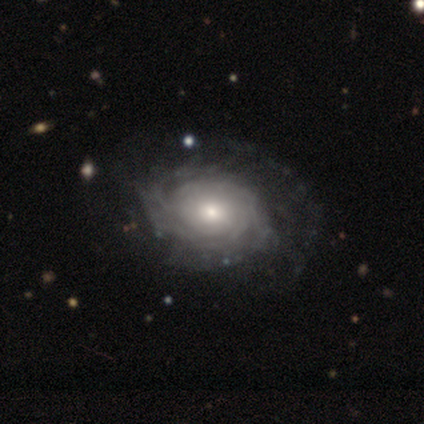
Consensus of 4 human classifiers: smooth-or-featured: featured or disk: 100% | smooth: 0% | star or artifact: 0%
  disk-edge-on: no: 100% | yes: 0%
    bar: no: 100% | strong: 0% | weak: 0%
    has-spiral-arms: yes: 100% | no: 0%
      spiral-winding: tight: 75% | medium: 25% | loose: 0%
      spiral-arm-count: can't tell: 100% | 1: 0% | 2: 0% | 3: 0% | 4: 0% | more than 4: 0%
    bulge-size: moderate: 50% | large: 25% | small: 25% | dominant: 0% | none: 0%
  merging: minor disturbance: 75% | none: 25% | major disturbance: 0% | merger: 0%